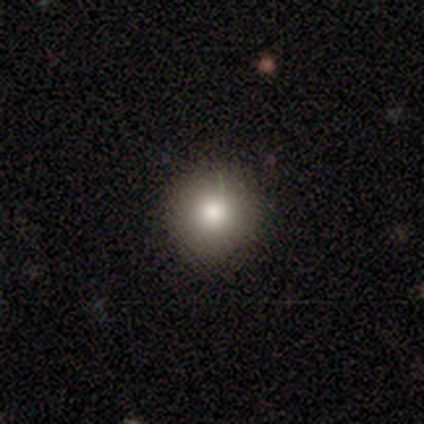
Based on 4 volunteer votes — smooth-or-featured: smooth: 100% | featured or disk: 0% | star or artifact: 0%
  how-rounded: round: 100% | in between: 0% | cigar-shaped: 0%
  merging: none: 100% | minor disturbance: 0% | major disturbance: 0% | merger: 0%